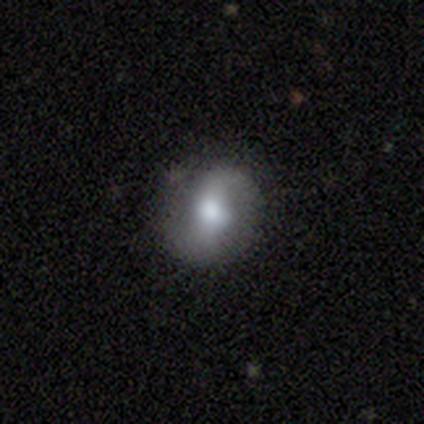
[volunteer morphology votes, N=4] Smooth or featured? 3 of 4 (75%) said featured or disk. Edge-on disk? 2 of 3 (67%) said no. Bar? 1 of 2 (50%, tied with no) said weak. Spiral arms? 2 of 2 (100%) said yes. Spiral winding? 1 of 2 (50%, tied with loose) said tight. Spiral arm count? 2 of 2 (100%) said 2. Bulge size? 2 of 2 (100%) said moderate. Merging? 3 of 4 (75%) said none.